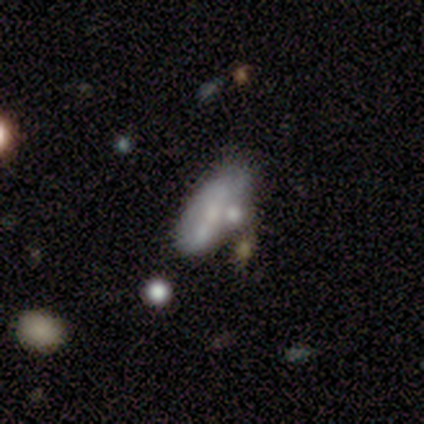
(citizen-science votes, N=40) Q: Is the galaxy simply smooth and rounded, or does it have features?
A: smooth — 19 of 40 (48%).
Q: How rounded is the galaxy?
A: in between — 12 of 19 (63%).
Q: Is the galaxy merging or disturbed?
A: none — 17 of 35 (49%).